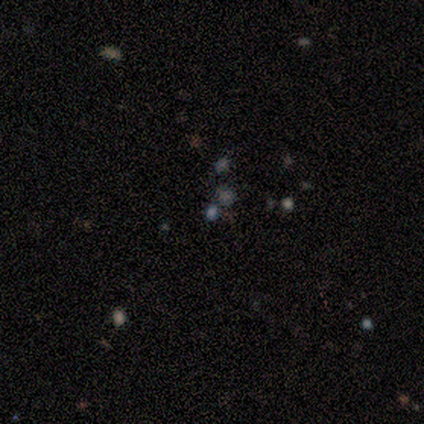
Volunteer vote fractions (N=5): This appears to be a smooth galaxy with no disk features (40%, tied with star or artifact) that is round (100%). Merging: none (100%).